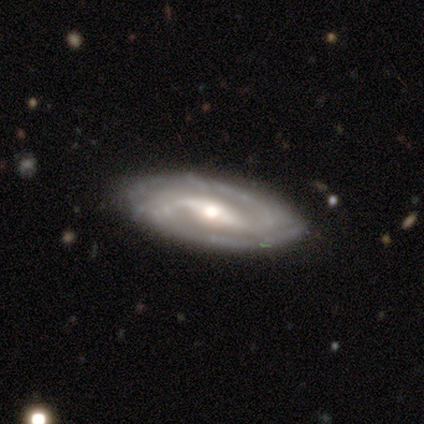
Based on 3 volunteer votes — Smooth or featured? 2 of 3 (67%) said smooth. How rounded? 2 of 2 (100%) said in between. Merging? 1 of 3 (33%, tied with major disturbance and merger) said none.